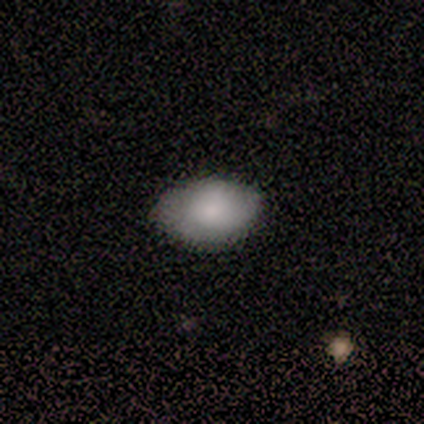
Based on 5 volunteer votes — Smooth or featured? smooth (100%)
How rounded? in between (100%)
Merging? none (100%)